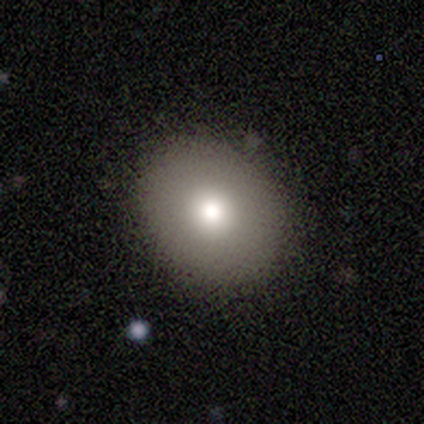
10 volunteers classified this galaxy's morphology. smooth_or_featured: smooth (p=0.90) [alt: featured or disk p=0.10]
how_rounded: round (p=0.56) [alt: in between p=0.44]
merging: none (p=0.90) [alt: minor disturbance p=0.10]